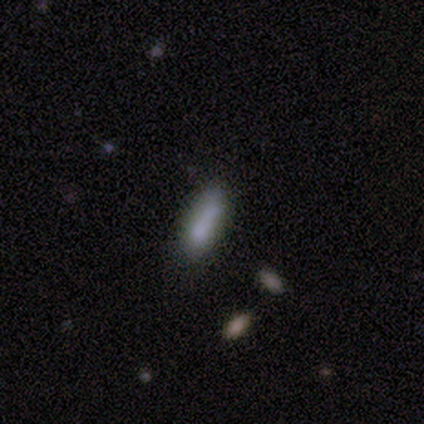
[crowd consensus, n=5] A smooth galaxy with no disk features (60%) that is cigar-shaped (67%).

Vote fractions:
- Smooth or featured? smooth: 60% / featured or disk: 20% / star or artifact: 20%
- How rounded? cigar-shaped: 67% / in between: 33% / round: 0%
- Merging? none: 100% / minor disturbance: 0% / major disturbance: 0% / merger: 0%